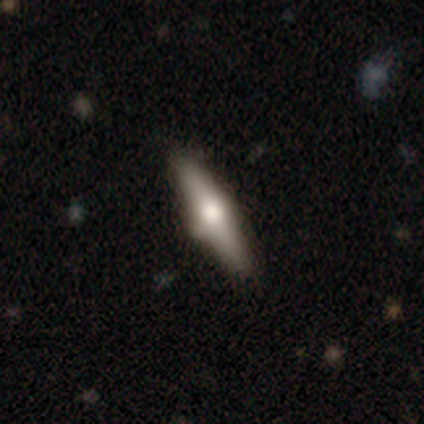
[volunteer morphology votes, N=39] featured or disk 59%, smooth 38%, star or artifact 3%. Down the decision tree: edge-on disk — yes (100%); edge-on bulge — rounded (100%); merging — none (74%).